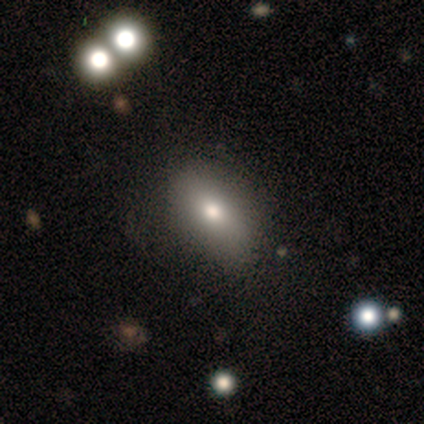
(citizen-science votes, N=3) Smooth or featured?
  - smooth: 67% *
  - star or artifact: 33%
  - featured or disk: 0%
How rounded?
  - in between: 100% *
  - round: 0%
  - cigar-shaped: 0%
Merging?
  - none: 100% *
  - minor disturbance: 0%
  - major disturbance: 0%
  - merger: 0%